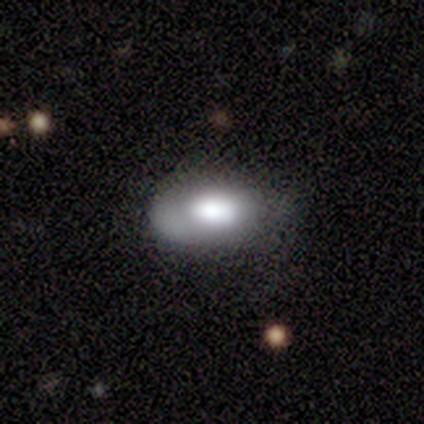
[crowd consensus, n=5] This is likely a smooth galaxy (60%). How rounded: clearly in between (100%). Merging: likely minor disturbance (60%).